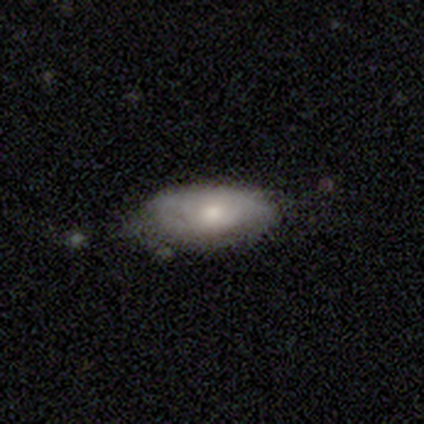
smooth_or_featured: smooth (p=0.62) [alt: featured or disk p=0.19]
how_rounded: in between (p=0.96) [alt: round p=0.04]
merging: none (p=0.63) [alt: minor disturbance p=0.30]